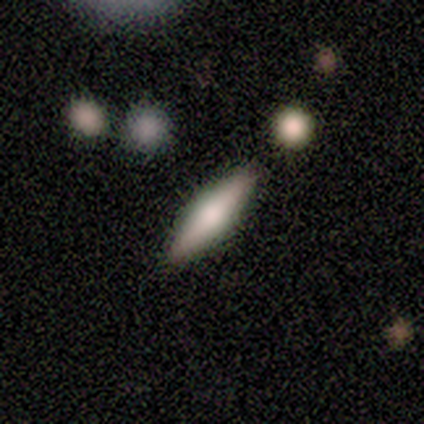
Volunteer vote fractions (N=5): Smooth or featured?
  - smooth: 60% *
  - featured or disk: 40%
  - star or artifact: 0%
How rounded?
  - cigar-shaped: 100% *
  - round: 0%
  - in between: 0%
Merging?
  - none: 100% *
  - minor disturbance: 0%
  - major disturbance: 0%
  - merger: 0%